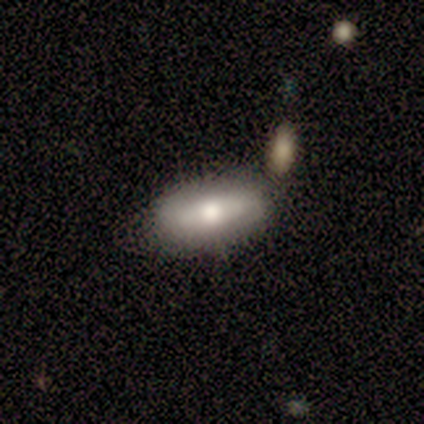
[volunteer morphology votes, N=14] This appears to be a smooth galaxy with no disk features (93%) that is in between round and cigar-shaped (69%). Merging: none (79%).